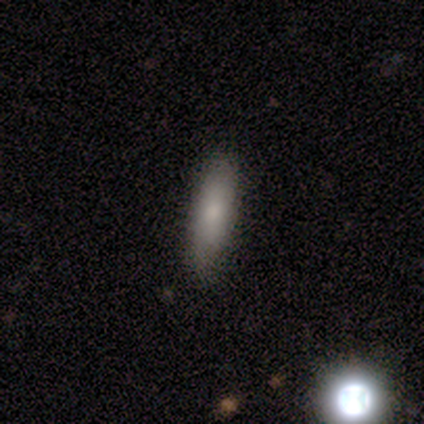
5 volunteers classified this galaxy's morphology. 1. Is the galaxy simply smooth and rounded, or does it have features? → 80% smooth, 20% featured or disk, 0% star or artifact.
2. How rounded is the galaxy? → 75% cigar-shaped, 25% in between, 0% round.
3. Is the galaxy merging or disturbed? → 100% none, 0% minor disturbance, 0% major disturbance, 0% merger.